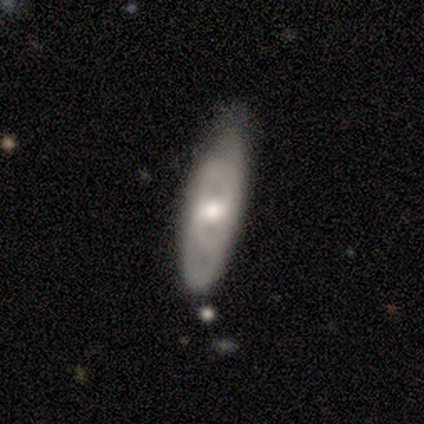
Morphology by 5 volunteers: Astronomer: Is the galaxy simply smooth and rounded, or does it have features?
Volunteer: smooth — 40%, tied with featured or disk at 40%.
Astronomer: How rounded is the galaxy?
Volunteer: in between — 100%.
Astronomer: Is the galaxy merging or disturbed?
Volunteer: none — 75%.